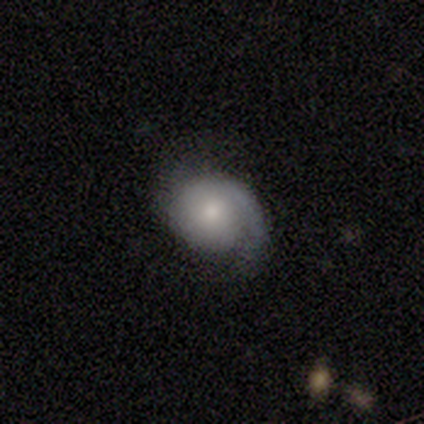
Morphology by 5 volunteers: Smooth or featured: featured or disk — 80% (smooth — 20%)
Edge-on disk: no — 100%
Bar: no — 50% (strong — 25%)
Spiral arms: yes — 100%
Spiral winding: tight — 50% (tied with loose — 50%)
Spiral arm count: 1 — 75% (can't tell — 25%)
Bulge size: small — 75% (none — 25%)
Merging: none — 100%